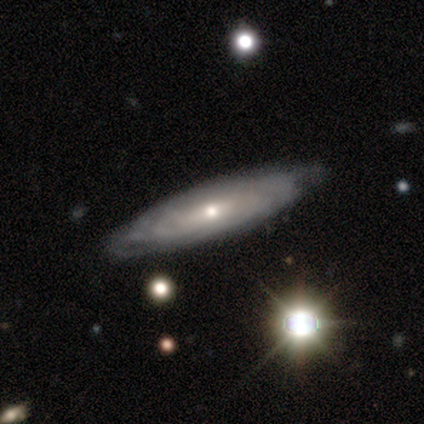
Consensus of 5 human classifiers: Morphology: type=featured or disk (40%, tied with star or artifact); edge-on=no (100%); bar=strong (50%, tied with weak); spiral arms=yes (100%); winding=tight (50%, tied with loose); arm count=can't tell (100%); bulge=moderate (50%, tied with small); merging=none (33%, tied with major disturbance and merger).